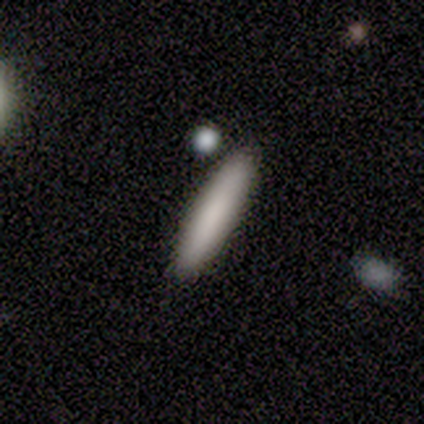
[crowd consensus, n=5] Volunteers were most divided on "smooth or featured": smooth: 80%, featured or disk: 20%, star or artifact: 0%. More confident: how rounded — cigar-shaped (100%); merging — none (100%).